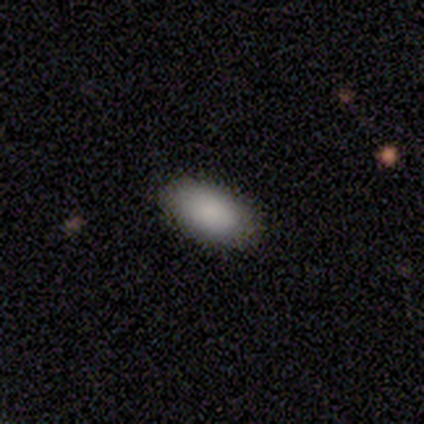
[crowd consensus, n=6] smooth_or_featured: smooth (p=0.83) [alt: featured or disk p=0.17]
how_rounded: in between (p=0.80) [alt: round p=0.20]
merging: none (p=0.83) [alt: minor disturbance p=0.17]